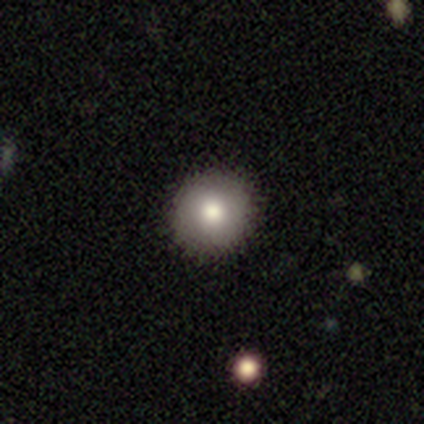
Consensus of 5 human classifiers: A smooth galaxy with no disk features (80%) that is round (100%). Merging: none (100%).